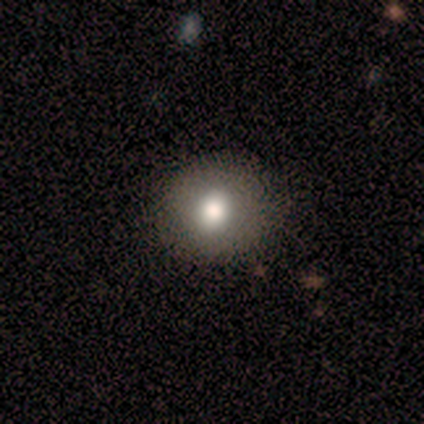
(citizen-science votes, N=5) A smooth galaxy with no disk features (60%) that is in between round and cigar-shaped (67%).

Vote fractions:
- Smooth or featured? smooth: 60% / featured or disk: 40% / star or artifact: 0%
- How rounded? in between: 67% / round: 33% / cigar-shaped: 0%
- Merging? none: 100% / minor disturbance: 0% / major disturbance: 0% / merger: 0%